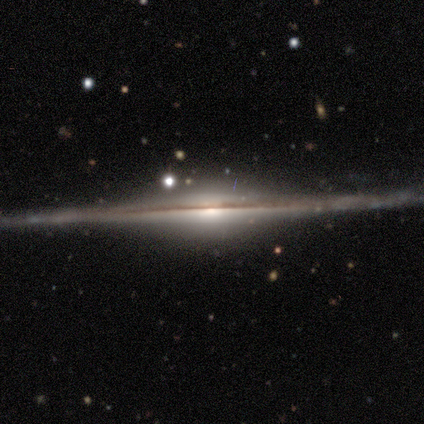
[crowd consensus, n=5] Volunteers were most divided on "edge-on bulge": rounded: 80%, boxy: 20%, none: 0%. More confident: smooth or featured — featured or disk (100%); edge-on disk — yes (100%); merging — none (100%).